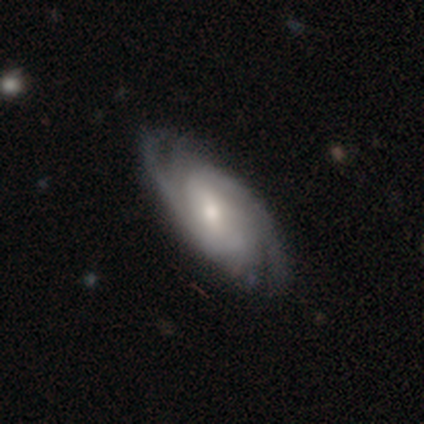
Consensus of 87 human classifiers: Q: Smooth or featured?
A: featured or disk (82%); runner-up: smooth (13%)
Q: Edge-on disk?
A: no (93%); runner-up: yes (7%)
Q: Bar?
A: no (48%); runner-up: weak (38%)
Q: Spiral arms?
A: yes (100%)
Q: Spiral winding?
A: tight (55%); runner-up: medium (36%)
Q: Spiral arm count?
A: 2 (48%); runner-up: can't tell (21%)
Q: Bulge size?
A: small (52%); runner-up: moderate (44%)
Q: Merging?
A: none (77%); runner-up: minor disturbance (17%)